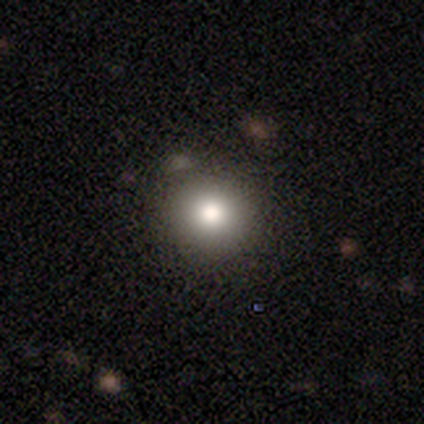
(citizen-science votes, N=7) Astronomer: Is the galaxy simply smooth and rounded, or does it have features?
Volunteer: smooth — 86%.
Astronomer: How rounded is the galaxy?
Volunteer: round — 67%.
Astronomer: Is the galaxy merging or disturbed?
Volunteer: none — 57%.